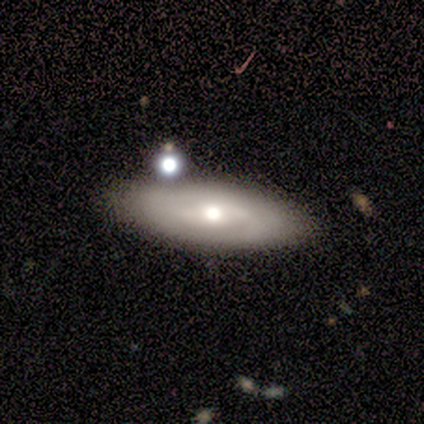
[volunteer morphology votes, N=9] A featured or disk galaxy (56%) with no bar (67%), no spiral arms (100%) and a moderate central bulge (67%). Merging: none (75%).